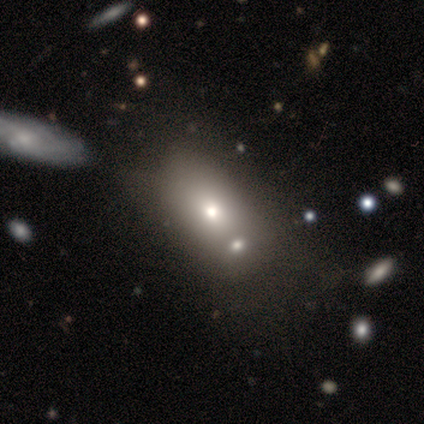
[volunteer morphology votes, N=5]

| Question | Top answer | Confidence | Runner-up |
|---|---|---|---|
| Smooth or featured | smooth | 60% | featured or disk (20%) |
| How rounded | in between | 100% | — |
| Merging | merger | 75% | none (25%) |